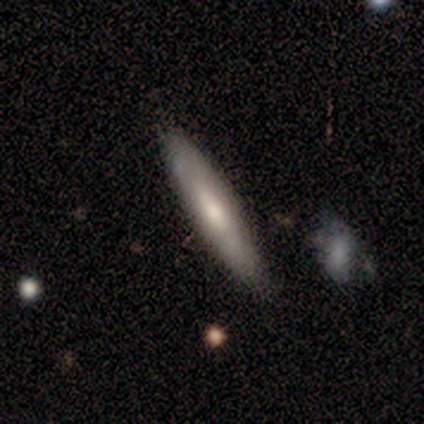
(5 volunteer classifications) smooth-or-featured: smooth: 60% | featured or disk: 40% | star or artifact: 0%
  how-rounded: cigar-shaped: 100% | round: 0% | in between: 0%
  merging: none: 80% | major disturbance: 20% | minor disturbance: 0% | merger: 0%